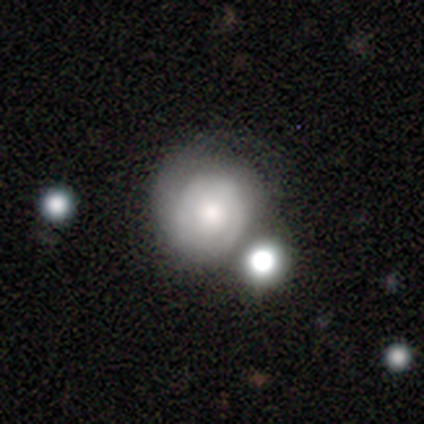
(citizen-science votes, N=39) Overall: smooth (46%; featured or disk 41%). How rounded: round (83%). Merging: none (38%; merger 26%).